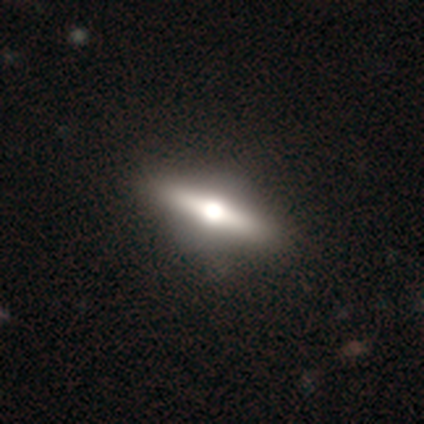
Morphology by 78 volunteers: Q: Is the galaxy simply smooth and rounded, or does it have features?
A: featured or disk — 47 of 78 (60%).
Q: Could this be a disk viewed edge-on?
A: yes — 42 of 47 (89%).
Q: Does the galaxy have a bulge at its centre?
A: rounded — 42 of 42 (100%).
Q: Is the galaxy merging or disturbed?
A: none — 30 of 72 (42%).